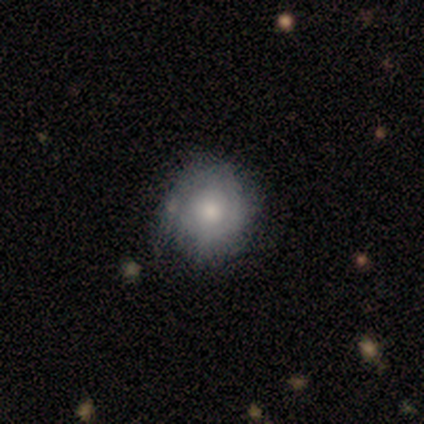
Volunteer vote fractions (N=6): smooth_or_featured: smooth (p=0.50) [tied with: featured or disk p=0.50]
how_rounded: round (p=1.00)
merging: none (p=0.67) [alt: minor disturbance p=0.17]